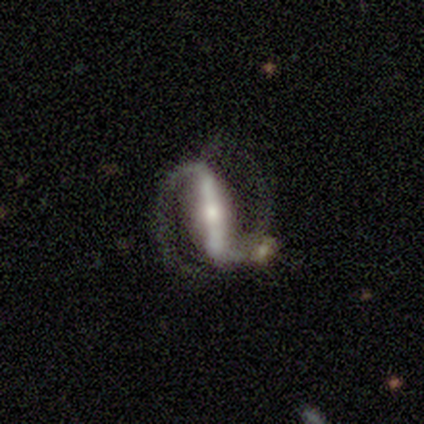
A featured or disk galaxy (100%) with a strong bar (100%), 2 (100%) tight (40%, tied with medium) spiral arms (100%) and a small central bulge (60%). Merging: none (80%).